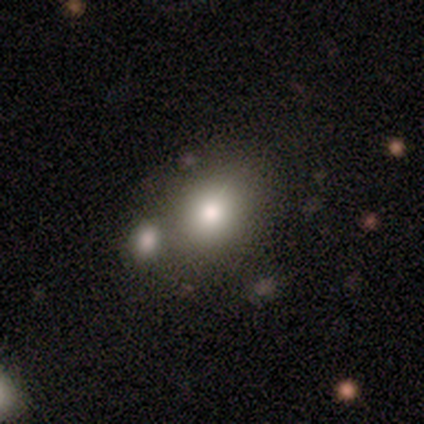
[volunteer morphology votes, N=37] Smooth or featured?
  - smooth: 84% *
  - featured or disk: 8%
  - star or artifact: 8%
How rounded?
  - in between: 55% *
  - round: 45%
  - cigar-shaped: 0%
Merging?
  - none: 44% *
  - merger: 29%
  - minor disturbance: 18%
  - major disturbance: 9%